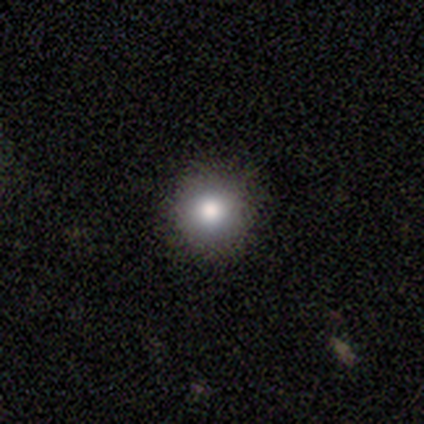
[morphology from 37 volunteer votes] Q: Smooth or featured?
A: smooth (76%); runner-up: star or artifact (14%)
Q: How rounded?
A: round (89%); runner-up: in between (11%)
Q: Merging?
A: none (88%); runner-up: minor disturbance (12%)